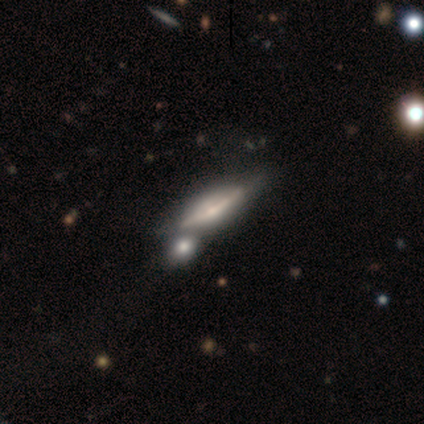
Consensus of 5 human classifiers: This appears to be a featured or disk galaxy (60%) viewed edge-on (67%) with a rounded central bulge (100%). Merging: none (80%).